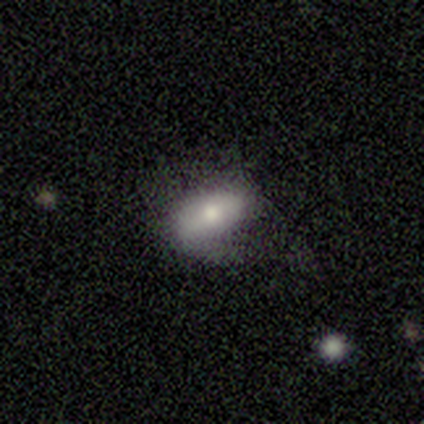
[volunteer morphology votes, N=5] smooth 60%, featured or disk 20%, star or artifact 20%. Down the decision tree: how rounded — in between (100%); merging — minor disturbance (50%).